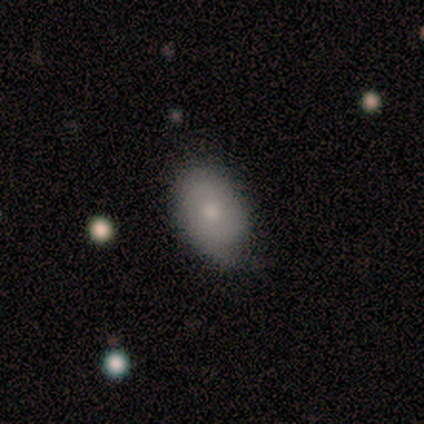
Smooth or featured?
  - smooth: 60% *
  - featured or disk: 40%
  - star or artifact: 0%
How rounded?
  - in between: 100% *
  - round: 0%
  - cigar-shaped: 0%
Merging?
  - none: 100% *
  - minor disturbance: 0%
  - major disturbance: 0%
  - merger: 0%